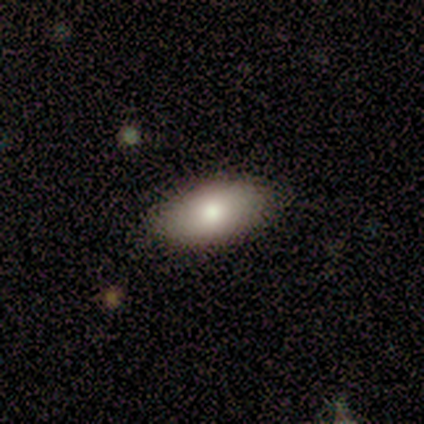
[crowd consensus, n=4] Smooth or featured? smooth (100%)
How rounded? in between (100%)
Merging? none (50%)